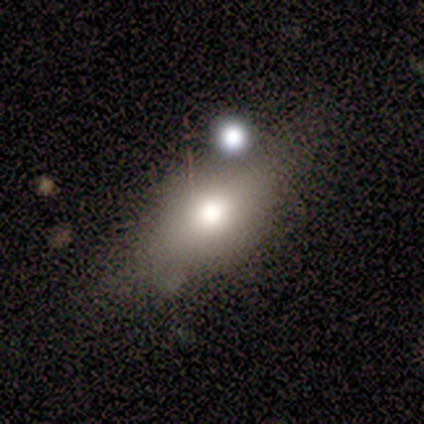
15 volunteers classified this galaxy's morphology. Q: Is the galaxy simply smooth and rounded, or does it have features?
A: smooth — 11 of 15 (73%).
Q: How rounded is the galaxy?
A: in between — 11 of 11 (100%).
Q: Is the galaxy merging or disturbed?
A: none — 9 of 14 (64%).